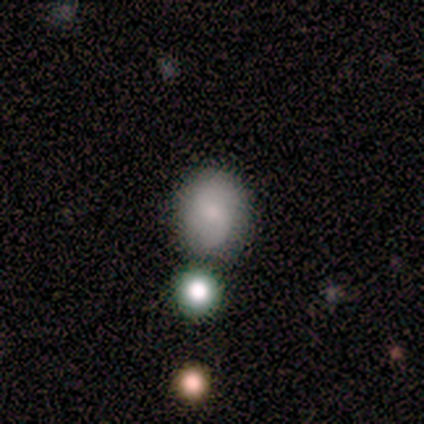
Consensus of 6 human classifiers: Overall: smooth (67%). How rounded: round (75%). Merging: none (100%).